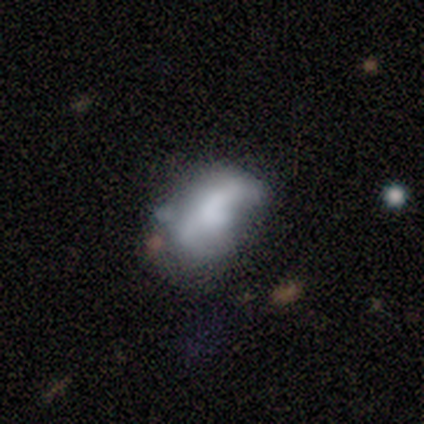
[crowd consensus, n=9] Smooth or featured? smooth (67%)
How rounded? in between (100%)
Merging? none (44%)